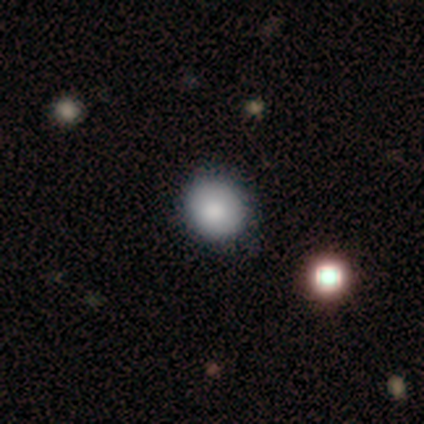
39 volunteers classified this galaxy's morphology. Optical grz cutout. It shows a smooth galaxy with no disk features (79%) that is round (94%). Merging: none (75%).